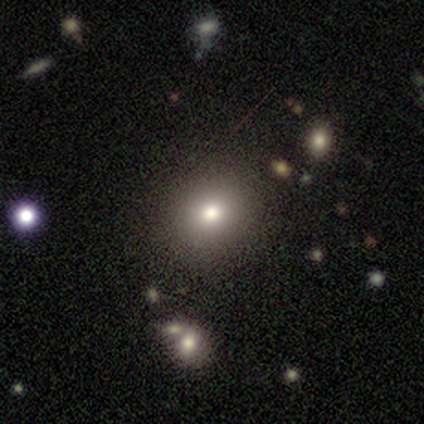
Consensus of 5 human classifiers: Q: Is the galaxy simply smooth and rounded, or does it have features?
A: smooth — 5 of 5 (100%).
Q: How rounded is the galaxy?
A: round — 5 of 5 (100%).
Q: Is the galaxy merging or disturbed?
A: none — 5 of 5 (100%).